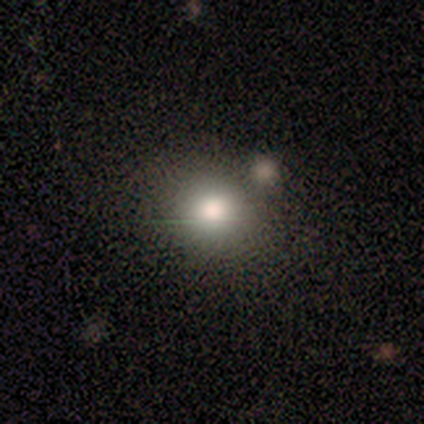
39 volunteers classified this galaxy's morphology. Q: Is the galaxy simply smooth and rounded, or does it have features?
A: smooth — 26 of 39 (67%).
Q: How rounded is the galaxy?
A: round — 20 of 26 (77%).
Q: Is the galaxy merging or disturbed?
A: none — 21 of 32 (66%).